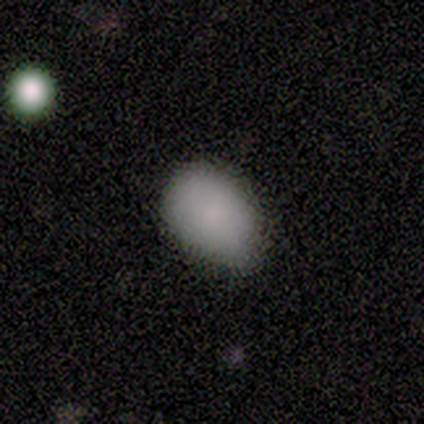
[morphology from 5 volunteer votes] A smooth galaxy with no disk features (100%) that is in between round and cigar-shaped (80%). Merging: none (80%).